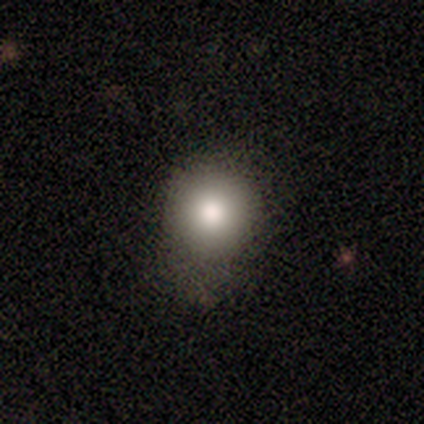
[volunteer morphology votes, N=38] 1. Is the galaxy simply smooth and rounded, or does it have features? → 87% smooth, 11% featured or disk, 3% star or artifact.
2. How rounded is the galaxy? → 88% round, 12% in between, 0% cigar-shaped.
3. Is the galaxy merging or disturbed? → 68% none, 32% minor disturbance, 0% major disturbance, 0% merger.